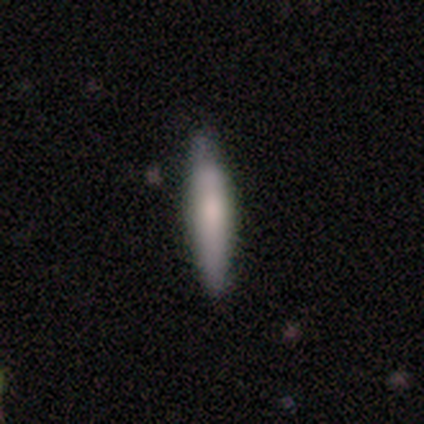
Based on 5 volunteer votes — smooth-or-featured: smooth: 100% | featured or disk: 0% | star or artifact: 0%
  how-rounded: cigar-shaped: 60% | in between: 40% | round: 0%
  merging: none: 80% | minor disturbance: 20% | major disturbance: 0% | merger: 0%